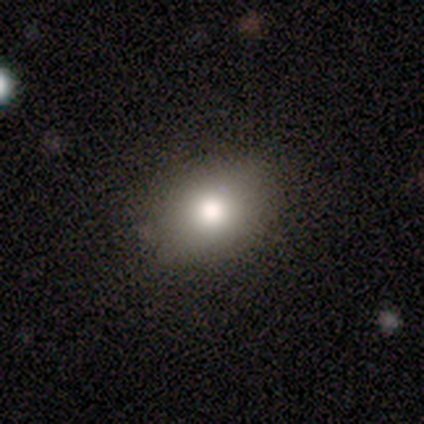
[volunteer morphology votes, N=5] A smooth galaxy with no disk features (60%) that is round (67%). Merging: none (100%).